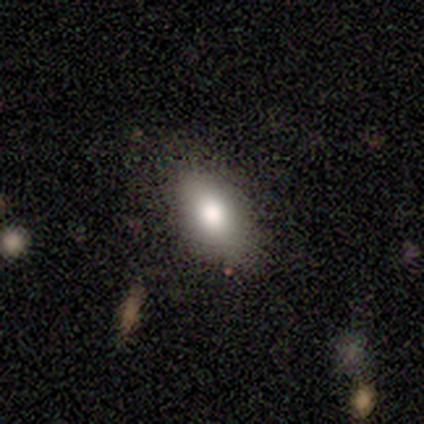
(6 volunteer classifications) Smooth or featured: smooth — 83% (star or artifact — 17%)
How rounded: in between — 100%
Merging: none — 60% (minor disturbance — 40%)